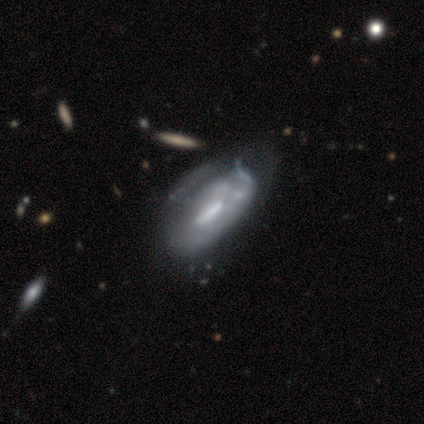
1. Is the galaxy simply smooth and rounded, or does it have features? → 60% featured or disk, 30% smooth, 10% star or artifact.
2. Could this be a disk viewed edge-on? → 94% no, 6% yes.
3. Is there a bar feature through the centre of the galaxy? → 41% strong (tied), 41% no (tied), 18% weak.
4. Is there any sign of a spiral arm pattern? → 94% no, 6% yes.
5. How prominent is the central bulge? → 35% moderate, 29% small, 24% none, 12% large, 0% dominant.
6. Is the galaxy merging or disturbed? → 37% none, 33% minor disturbance, 30% major disturbance, 0% merger.